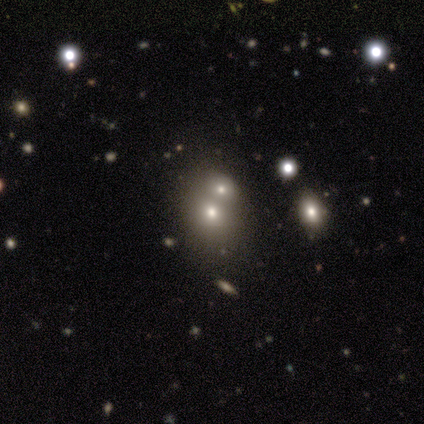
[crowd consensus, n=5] Q: Smooth or featured?
A: smooth (60%); runner-up: star or artifact (40%)
Q: How rounded?
A: round (67%); runner-up: in between (33%)
Q: Merging?
A: none (33%); tied with: minor disturbance (33%); merger (33%)